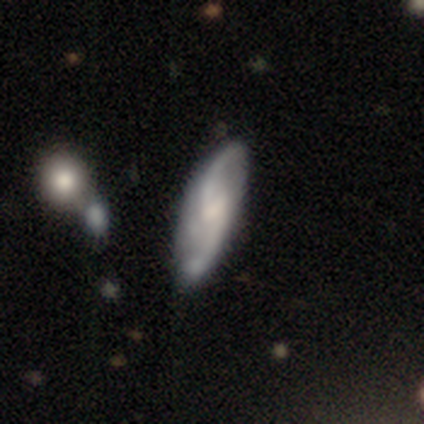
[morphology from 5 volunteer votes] smooth-or-featured: featured or disk: 80% | smooth: 20% | star or artifact: 0%
  disk-edge-on: no: 100% | yes: 0%
    bar: weak: 75% | no: 25% | strong: 0%
    has-spiral-arms: yes: 100% | no: 0%
      spiral-winding: loose: 75% | medium: 25% | tight: 0%
      spiral-arm-count: 2: 100% | 1: 0% | 3: 0% | 4: 0% | more than 4: 0% | can't tell: 0%
    bulge-size: small: 50% | moderate: 25% | none: 25% | dominant: 0% | large: 0%
  merging: none: 40% (tied) | minor disturbance: 40% (tied) | major disturbance: 20% | merger: 0%